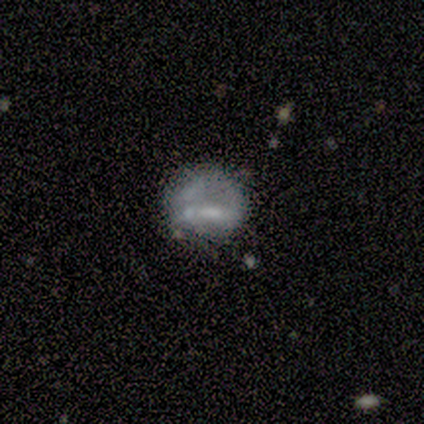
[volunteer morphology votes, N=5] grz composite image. It shows a featured or disk galaxy (80%) with no bar (50%), no spiral arms (100%) and a moderate central bulge (50%, tied with none). Merging: none (60%).